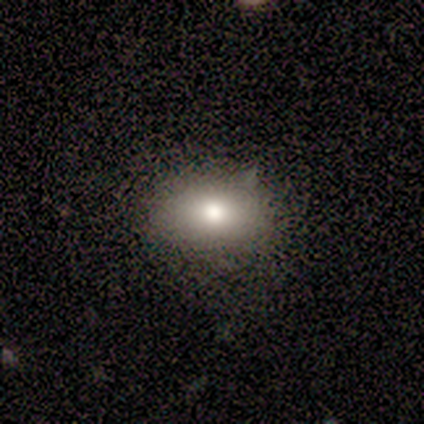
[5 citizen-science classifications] Smooth or featured?
  - smooth: 100% *
  - featured or disk: 0%
  - star or artifact: 0%
How rounded?
  - in between: 100% *
  - round: 0%
  - cigar-shaped: 0%
Merging?
  - none: 80% *
  - minor disturbance: 20%
  - major disturbance: 0%
  - merger: 0%